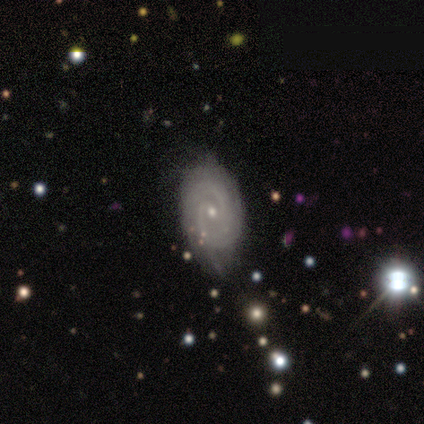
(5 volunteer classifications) Smooth or featured?
  - featured or disk: 100% *
  - smooth: 0%
  - star or artifact: 0%
Edge-on disk?
  - no: 80% *
  - yes: 20%
Bar?
  - weak: 50% * (tied)
  - no: 50% * (tied)
  - strong: 0%
Spiral arms?
  - yes: 100% *
  - no: 0%
Spiral winding?
  - medium: 75% *
  - tight: 25%
  - loose: 0%
Spiral arm count?
  - 2: 100% *
  - 1: 0%
  - 3: 0%
  - 4: 0%
  - more than 4: 0%
  - can't tell: 0%
Bulge size?
  - moderate: 50% * (tied)
  - small: 50% * (tied)
  - dominant: 0%
  - large: 0%
  - none: 0%
Merging?
  - minor disturbance: 100% *
  - none: 0%
  - major disturbance: 0%
  - merger: 0%